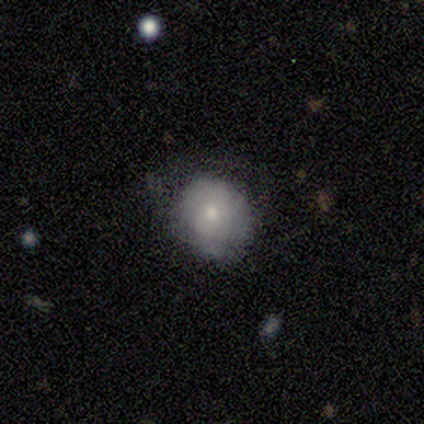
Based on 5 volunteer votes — Overall: smooth (60%; featured or disk 40%). How rounded: round (100%). Merging: none (60%; minor disturbance 40%).